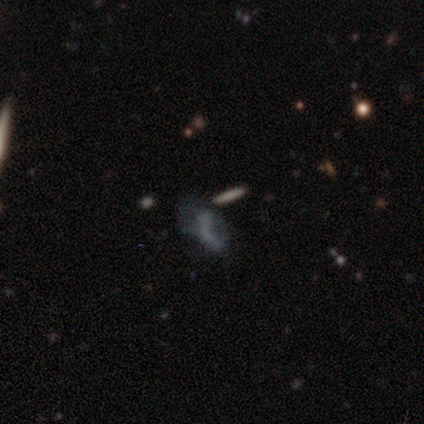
Smooth or featured? smooth (75%)
How rounded? cigar-shaped (67%)
Merging? merger (67%)